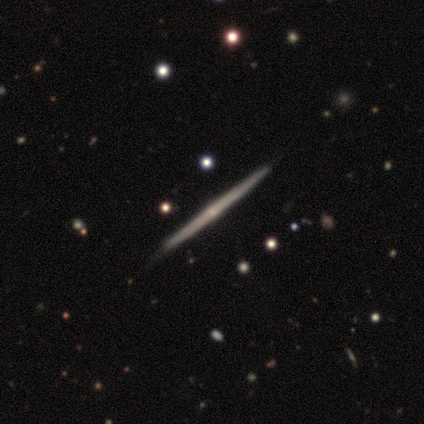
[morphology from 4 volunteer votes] This appears to be a featured or disk galaxy (75%) viewed edge-on (100%) with no central bulge (67%). Merging: none (100%).